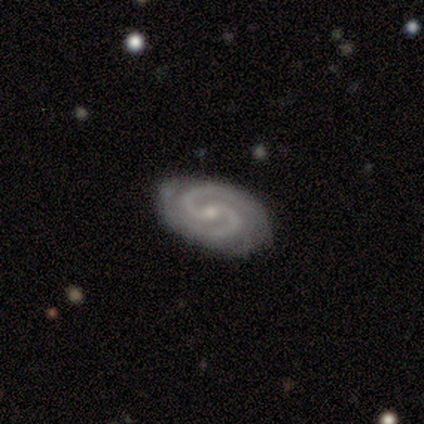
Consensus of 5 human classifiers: Morphology: type=featured or disk (100%); edge-on=no (100%); bar=weak (60%); spiral arms=yes (100%); winding=medium (60%); arm count=2 (100%); bulge=small (80%); merging=none (100%).